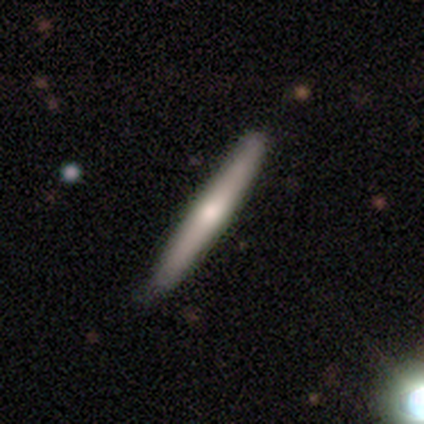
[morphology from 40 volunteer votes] type=smooth (55%); roundness=cigar-shaped (100%); merging=none (57%).